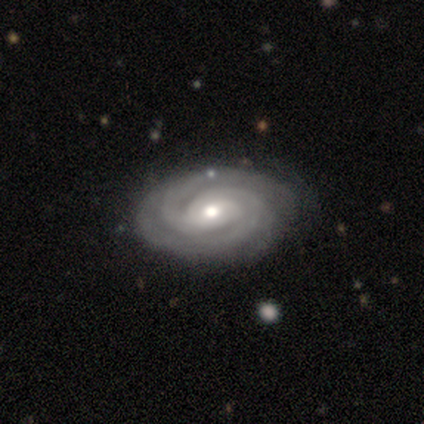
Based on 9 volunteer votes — This appears to be a featured or disk galaxy (89%) with no bar (71%), 3 (57%) tight (86%) spiral arms (100%) and a moderate central bulge (57%). Merging: none (56%).